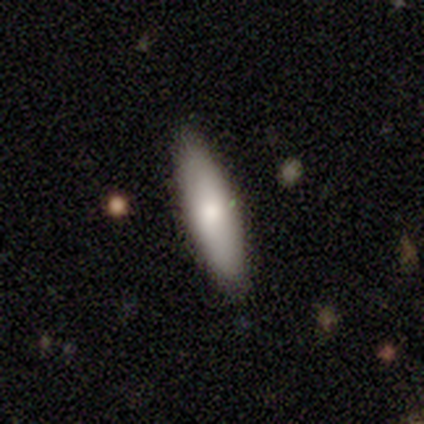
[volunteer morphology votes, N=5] This appears to be a featured or disk galaxy (60%) viewed edge-on (67%) with no central bulge (50%, tied with rounded). Merging: none (100%).